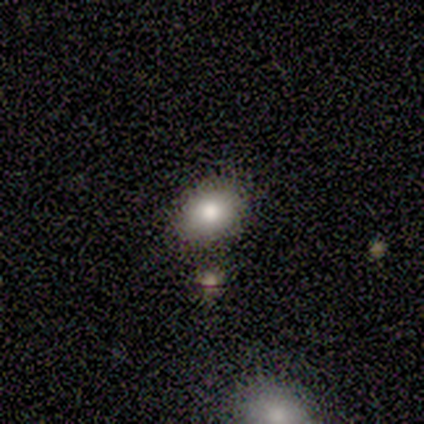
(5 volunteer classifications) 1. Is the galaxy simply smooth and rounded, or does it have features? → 40% smooth (tied), 40% star or artifact (tied), 20% featured or disk.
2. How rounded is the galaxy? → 100% round, 0% in between, 0% cigar-shaped.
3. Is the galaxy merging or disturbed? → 100% none, 0% minor disturbance, 0% major disturbance, 0% merger.